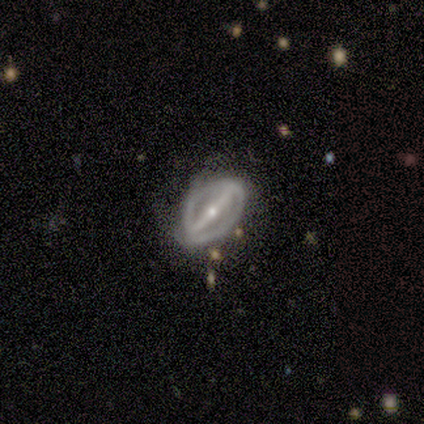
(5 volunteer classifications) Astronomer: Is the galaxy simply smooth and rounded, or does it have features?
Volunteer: featured or disk — 80%.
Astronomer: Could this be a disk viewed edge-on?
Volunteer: no — 100%.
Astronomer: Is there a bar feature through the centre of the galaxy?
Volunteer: strong — 100%.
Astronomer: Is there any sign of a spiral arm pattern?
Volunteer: yes — 75%.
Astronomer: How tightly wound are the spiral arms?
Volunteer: tight — 67%.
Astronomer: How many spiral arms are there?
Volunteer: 2 — 100%.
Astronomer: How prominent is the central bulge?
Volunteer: small — 75%.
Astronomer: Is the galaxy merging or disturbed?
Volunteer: minor disturbance — 40% (runner-up: none, 20%).